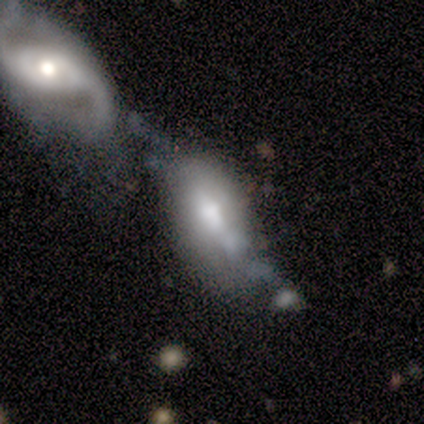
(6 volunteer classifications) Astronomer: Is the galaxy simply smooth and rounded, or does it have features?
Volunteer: smooth — 50%, tied with featured or disk at 50%.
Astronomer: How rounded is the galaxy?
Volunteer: in between — 67%.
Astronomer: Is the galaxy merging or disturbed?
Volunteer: merger — 50% (runner-up: minor disturbance, 33%).